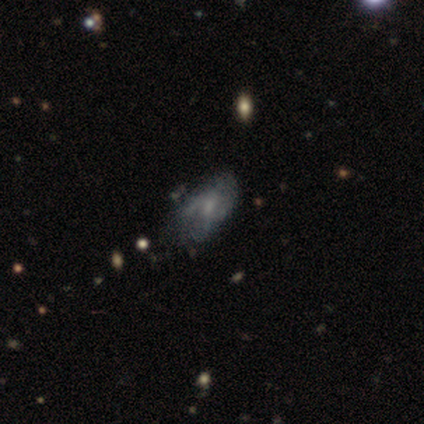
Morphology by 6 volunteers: Overall: featured or disk (50%; star or artifact 33%). Edge-on disk: no (100%). Bar: weak (67%; no 33%). Spiral arms: yes (100%). Spiral arm count: can't tell (67%; 2 33%). Spiral winding: medium (67%; loose 33%). Bulge size: small (67%; moderate 33%). Merging: none (75%).